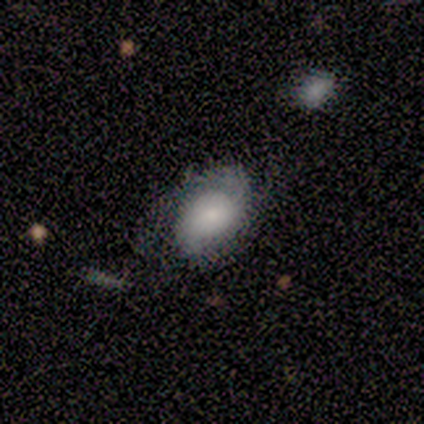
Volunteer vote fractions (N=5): Smooth or featured? 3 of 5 (60%) said smooth. How rounded? 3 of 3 (100%) said in between. Merging? 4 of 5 (80%) said none.